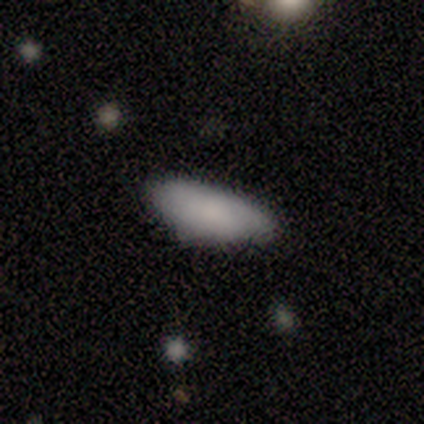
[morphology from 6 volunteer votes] smooth 83%, star or artifact 17%, featured or disk 0%. Down the decision tree: how rounded — in between (100%); merging — none (60%).